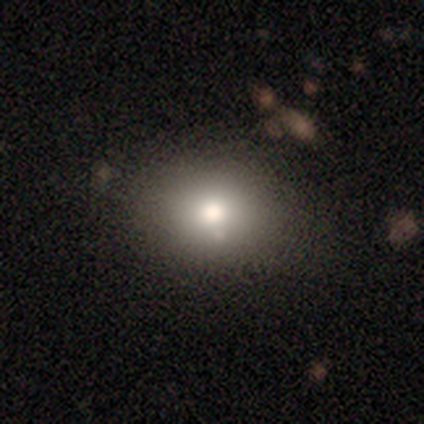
This is likely a smooth galaxy (74%). How rounded: possibly round (54%). Merging: clearly none (91%).